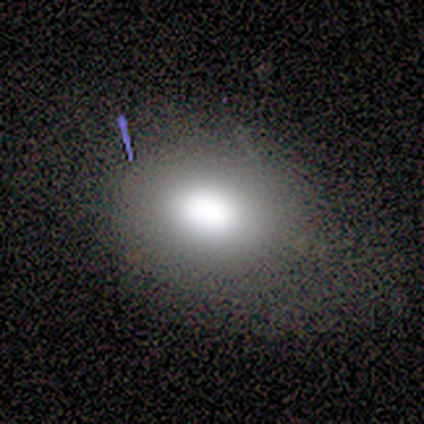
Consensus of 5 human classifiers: Volunteers were most divided on "how rounded": round: 75%, in between: 25%, cigar-shaped: 0%. More confident: smooth or featured — smooth (80%); merging — none (75%).